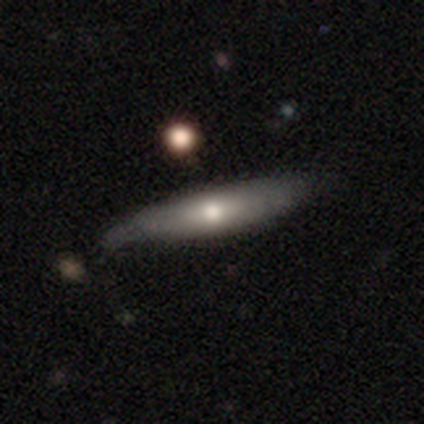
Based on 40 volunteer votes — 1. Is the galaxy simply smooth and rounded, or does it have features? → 55% smooth, 42% featured or disk, 2% star or artifact.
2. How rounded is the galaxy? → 82% cigar-shaped, 14% in between, 5% round.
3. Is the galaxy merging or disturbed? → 51% none, 41% minor disturbance, 8% major disturbance, 0% merger.